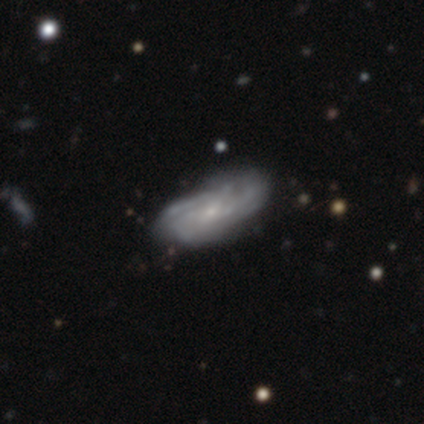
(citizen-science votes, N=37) smooth-or-featured: featured or disk: 65% | smooth: 27% | star or artifact: 8%
  disk-edge-on: no: 92% | yes: 8%
    bar: no: 73% | weak: 27% | strong: 0%
    has-spiral-arms: yes: 86% | no: 14%
      spiral-winding: tight: 58% | medium: 32% | loose: 11%
      spiral-arm-count: can't tell: 63% | 4: 16% | 2: 11% | 1: 5% | 3: 5% | more than 4: 0%
    bulge-size: small: 86% | large: 5% | moderate: 5% | none: 5% | dominant: 0%
  merging: minor disturbance: 44% | none: 38% | major disturbance: 15% | merger: 3%